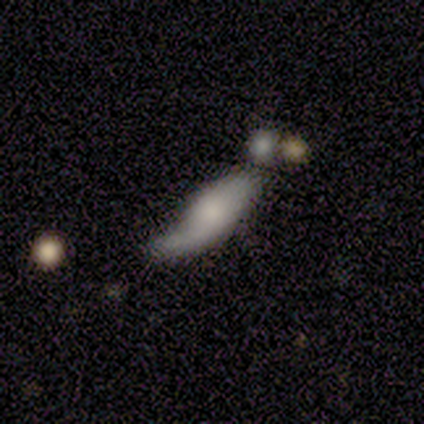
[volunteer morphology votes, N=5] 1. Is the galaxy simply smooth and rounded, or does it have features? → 60% featured or disk, 40% smooth, 0% star or artifact.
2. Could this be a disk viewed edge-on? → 67% no, 33% yes.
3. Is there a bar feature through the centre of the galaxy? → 100% no, 0% strong, 0% weak.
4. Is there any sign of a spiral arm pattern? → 100% no, 0% yes.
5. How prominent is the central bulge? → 50% small (tied), 50% none (tied), 0% dominant, 0% large, 0% moderate.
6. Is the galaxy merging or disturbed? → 40% minor disturbance, 20% none, 20% major disturbance, 20% merger.